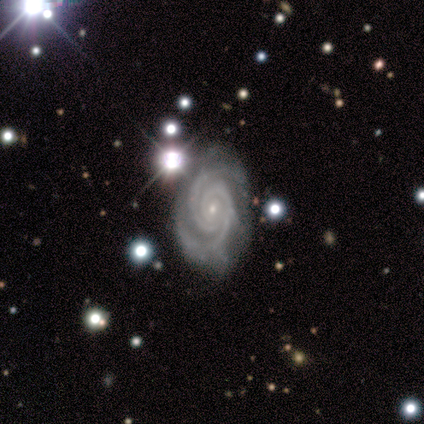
Q: Smooth or featured?
A: featured or disk (100%)
Q: Edge-on disk?
A: no (100%)
Q: Bar?
A: no (100%)
Q: Spiral arms?
A: yes (100%)
Q: Spiral winding?
A: tight (100%)
Q: Spiral arm count?
A: 2 (80%); runner-up: 4 (20%)
Q: Bulge size?
A: small (100%)
Q: Merging?
A: none (100%)